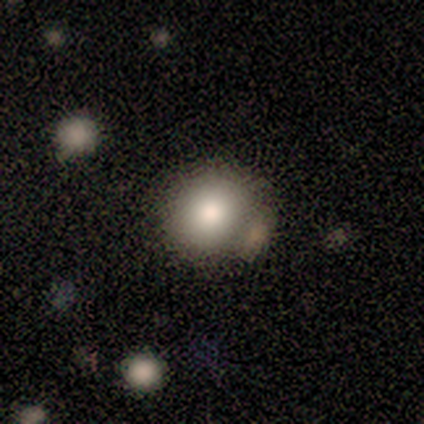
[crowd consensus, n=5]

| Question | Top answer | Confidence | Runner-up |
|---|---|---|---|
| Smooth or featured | smooth | 80% | featured or disk (20%) |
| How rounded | round | 75% | in between (25%) |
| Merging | none | 60% | minor disturbance (20%) |